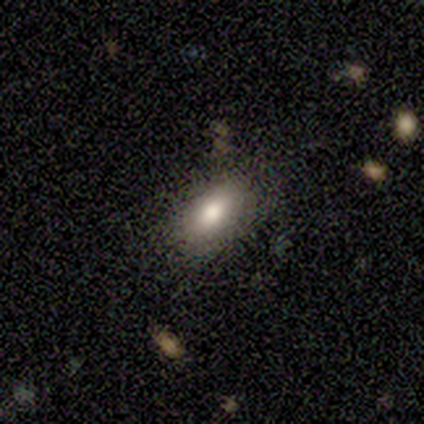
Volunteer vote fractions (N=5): This appears to be a smooth galaxy with no disk features (40%, tied with featured or disk) that is round (50%, tied with in between). Merging: none (75%).